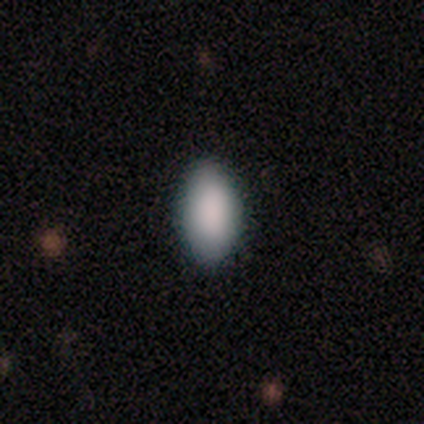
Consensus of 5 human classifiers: Q: Smooth or featured?
A: smooth (80%); runner-up: featured or disk (20%)
Q: How rounded?
A: in between (75%); runner-up: cigar-shaped (25%)
Q: Merging?
A: none (60%); runner-up: minor disturbance (20%)